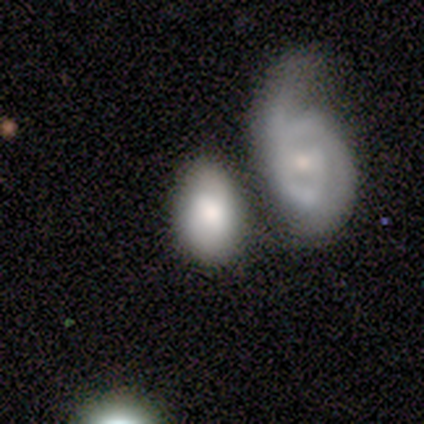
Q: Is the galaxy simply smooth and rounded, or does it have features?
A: featured or disk — 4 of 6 (67%).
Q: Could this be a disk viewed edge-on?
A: no — 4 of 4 (100%).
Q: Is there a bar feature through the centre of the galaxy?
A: weak — 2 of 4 (50%, tied with no).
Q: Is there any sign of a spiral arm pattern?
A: yes — 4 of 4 (100%).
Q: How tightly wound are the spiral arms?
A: tight — 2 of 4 (50%, tied with medium).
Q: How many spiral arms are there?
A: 2 — 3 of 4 (75%).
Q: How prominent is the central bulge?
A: small — 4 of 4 (100%).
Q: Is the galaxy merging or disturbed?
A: none — 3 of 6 (50%).